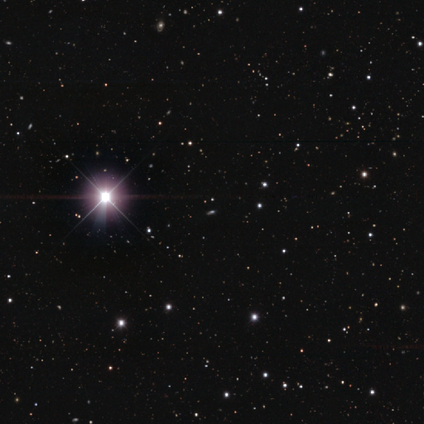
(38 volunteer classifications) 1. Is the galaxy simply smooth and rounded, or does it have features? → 84% star or artifact, 11% smooth, 5% featured or disk.